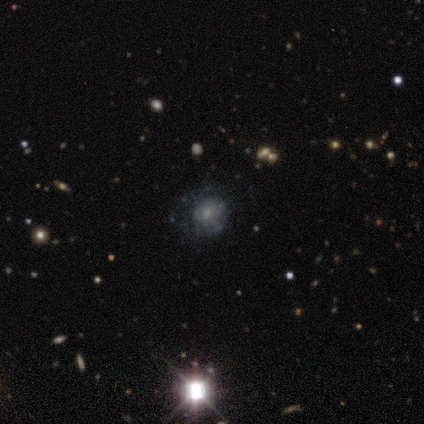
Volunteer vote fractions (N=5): star or artifact 60%, featured or disk 40%, smooth 0%.